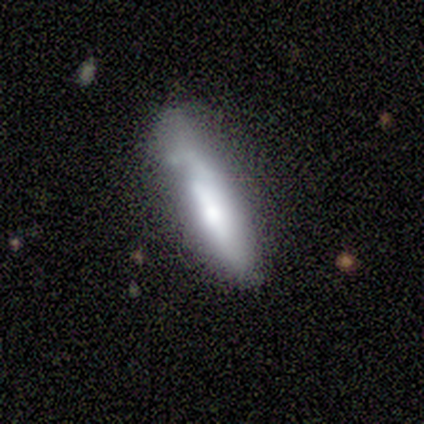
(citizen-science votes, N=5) smooth_or_featured: smooth (p=0.80) [alt: featured or disk p=0.20]
how_rounded: cigar-shaped (p=1.00)
merging: minor disturbance (p=0.60) [alt: none p=0.40]